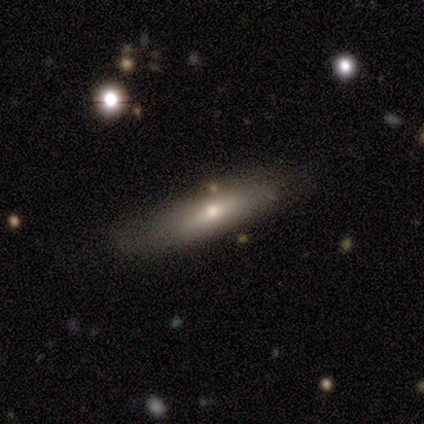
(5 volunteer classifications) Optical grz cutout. It shows a smooth galaxy with no disk features (100%) that is cigar-shaped (80%). Merging: none (80%).